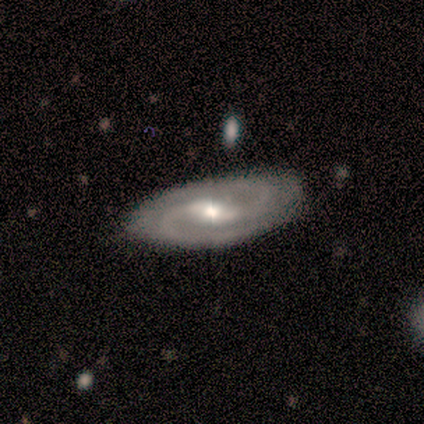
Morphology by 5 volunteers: This appears to be a featured or disk galaxy (100%) with a weak bar (60%), 2 (80%) medium (80%) spiral arms (100%) and a small central bulge (60%). Merging: none (100%).